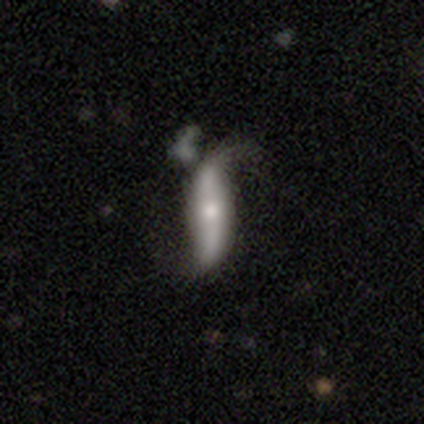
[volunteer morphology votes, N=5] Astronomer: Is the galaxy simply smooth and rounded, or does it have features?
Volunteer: featured or disk — 60% (runner-up: smooth, 40%).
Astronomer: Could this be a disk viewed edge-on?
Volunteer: no — 100%.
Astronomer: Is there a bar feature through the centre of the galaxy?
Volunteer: weak — 67%.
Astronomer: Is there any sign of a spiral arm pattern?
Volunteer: yes — 100%.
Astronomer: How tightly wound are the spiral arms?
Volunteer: loose — 100%.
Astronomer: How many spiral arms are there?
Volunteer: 2 — 100%.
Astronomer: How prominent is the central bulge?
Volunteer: large — 33%, tied with moderate and small at 33%.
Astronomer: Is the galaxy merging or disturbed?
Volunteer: minor disturbance — 40%, tied with major disturbance at 40%.